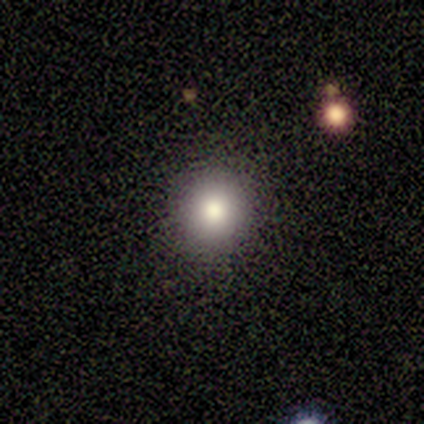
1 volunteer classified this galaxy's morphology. Q: Smooth or featured?
A: smooth (100%)
Q: How rounded?
A: round (100%)
Q: Merging?
A: minor disturbance (100%)